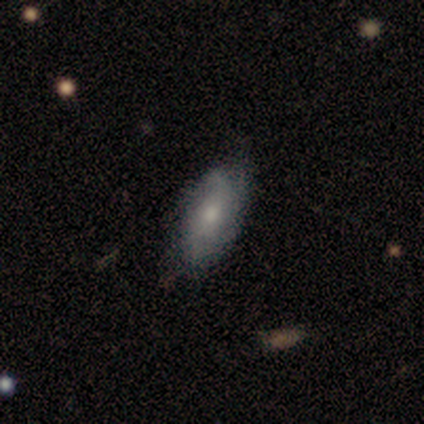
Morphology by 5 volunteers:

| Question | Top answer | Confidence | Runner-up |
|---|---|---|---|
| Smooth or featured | smooth | 60% | featured or disk (40%) |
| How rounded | in between | 67% | cigar-shaped (33%) |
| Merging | minor disturbance | 80% | none (20%) |